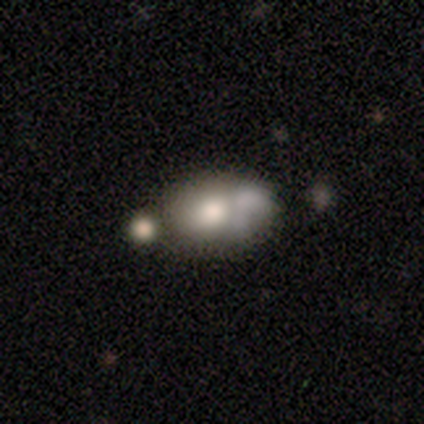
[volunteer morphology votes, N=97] This appears to be a smooth galaxy with no disk features (66%) that is in between round and cigar-shaped (78%). Merging: merger (51%).